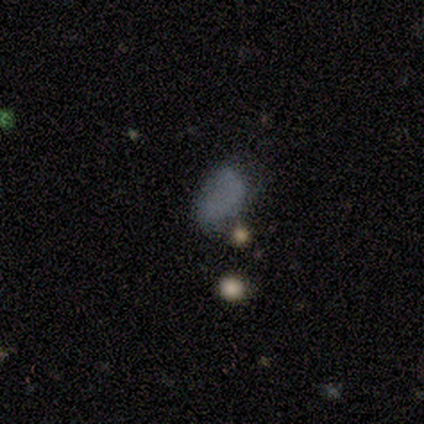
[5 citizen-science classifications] smooth 40% (tied), star or artifact 40% (tied), featured or disk 20%. Down the decision tree: how rounded — round (50%, tied with in between); merging — major disturbance (67%).